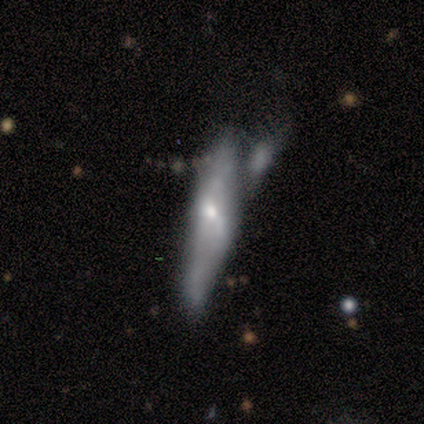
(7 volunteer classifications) Volunteers were most divided on "merging": major disturbance: 43%, none: 29%, minor disturbance: 29%, merger: 0%. More confident: how rounded — cigar-shaped (100%); smooth or featured — smooth (71%).